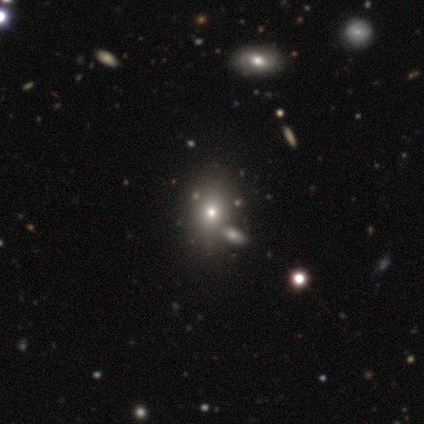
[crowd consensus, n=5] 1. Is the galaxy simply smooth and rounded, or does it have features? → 80% smooth, 20% star or artifact, 0% featured or disk.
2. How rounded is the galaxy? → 75% in between, 25% round, 0% cigar-shaped.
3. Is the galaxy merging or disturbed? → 75% none, 25% major disturbance, 0% minor disturbance, 0% merger.